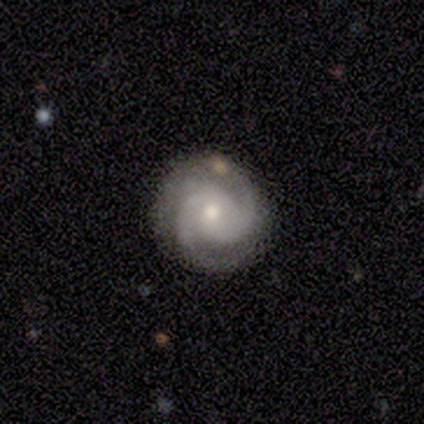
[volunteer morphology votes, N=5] type=featured or disk (80%); edge-on=no (100%); bar=no (75%); spiral arms=yes (100%); winding=medium (100%); arm count=2 (50%); bulge=small (75%); merging=none (80%).